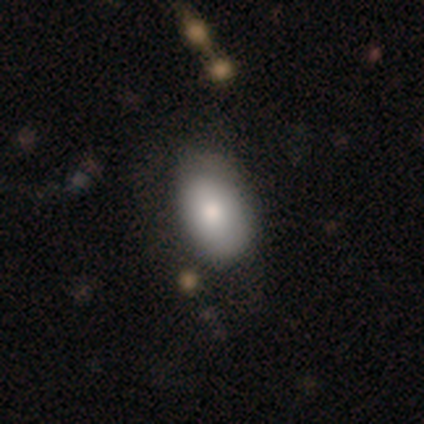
Overall: smooth (80%). How rounded: in between (100%). Merging: none (60%; minor disturbance 20%).